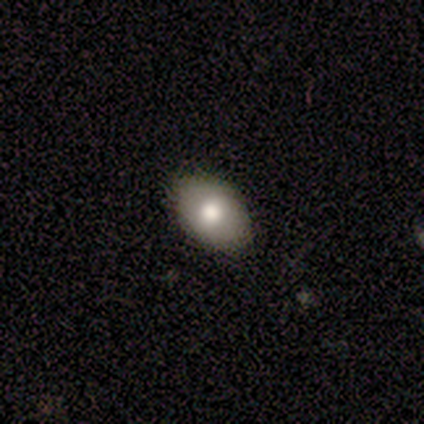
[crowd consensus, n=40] smooth-or-featured: smooth: 75% | featured or disk: 12% | star or artifact: 12%
  how-rounded: in between: 90% | round: 7% | cigar-shaped: 3%
  merging: none: 94% | minor disturbance: 6% | major disturbance: 0% | merger: 0%